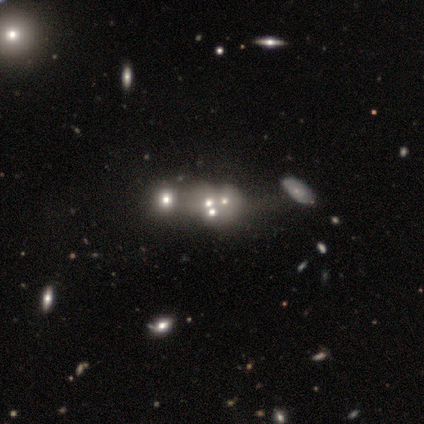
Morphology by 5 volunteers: A smooth galaxy with no disk features (80%) that is round (100%). Merging: merger (75%).